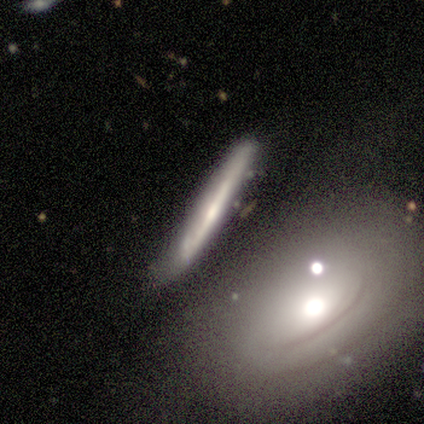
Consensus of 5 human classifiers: smooth_or_featured: featured or disk (p=0.80) [alt: smooth p=0.20]
disk_edge_on: yes (p=1.00)
edge_on_bulge: none (p=0.50) [tied with: rounded p=0.50]
merging: none (p=0.60) [alt: major disturbance p=0.20]